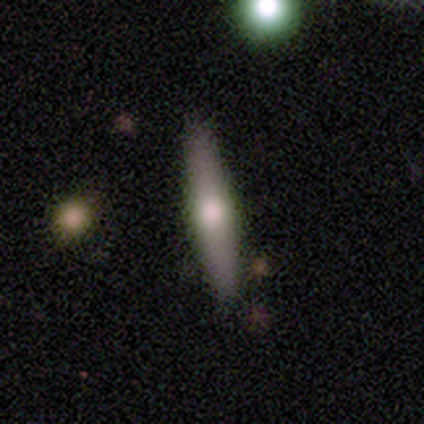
Smooth or featured?
  - featured or disk: 67% *
  - smooth: 17%
  - star or artifact: 17%
Edge-on disk?
  - yes: 100% *
  - no: 0%
Edge-on bulge?
  - rounded: 100% *
  - boxy: 0%
  - none: 0%
Merging?
  - none: 80% *
  - minor disturbance: 20%
  - major disturbance: 0%
  - merger: 0%